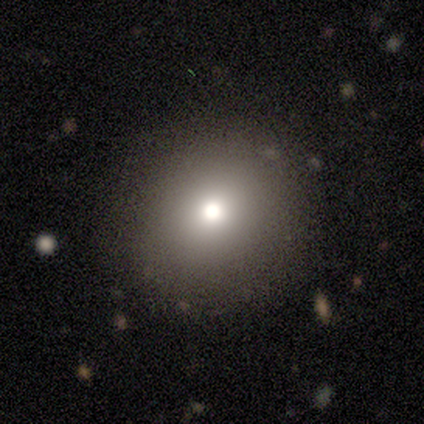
A smooth galaxy with no disk features (75%) that is round (100%).

Vote fractions:
- Smooth or featured? smooth: 75% / featured or disk: 25% / star or artifact: 0%
- How rounded? round: 100% / in between: 0% / cigar-shaped: 0%
- Merging? none: 75% / minor disturbance: 25% / major disturbance: 0% / merger: 0%